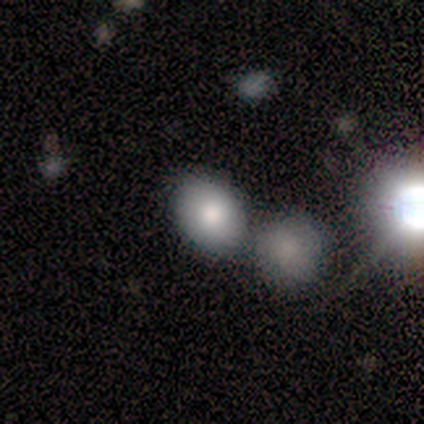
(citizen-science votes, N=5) Overall: smooth (80%). How rounded: in between (75%). Merging: none (40%, tied with merger).